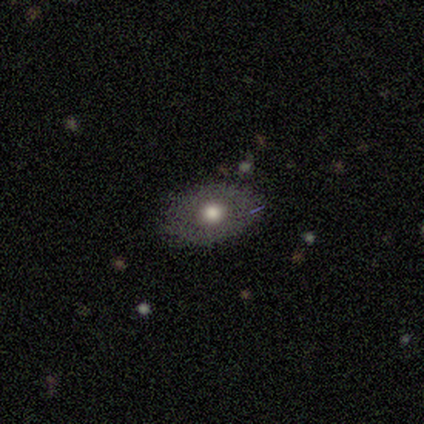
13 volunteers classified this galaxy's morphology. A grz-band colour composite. It shows a smooth galaxy with no disk features (62%) that is in between round and cigar-shaped (62%). Merging: none (92%).